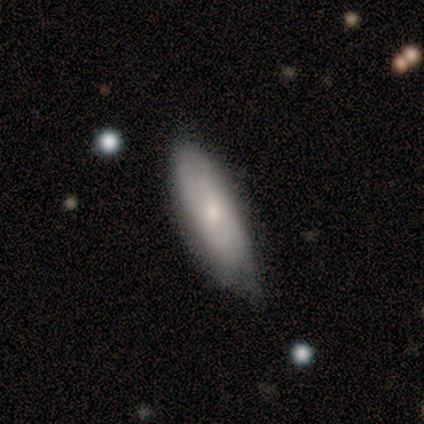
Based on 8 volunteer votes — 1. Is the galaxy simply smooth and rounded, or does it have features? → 100% smooth, 0% featured or disk, 0% star or artifact.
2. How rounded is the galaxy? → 62% in between, 38% cigar-shaped, 0% round.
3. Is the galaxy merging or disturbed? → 62% minor disturbance, 25% none, 12% major disturbance, 0% merger.